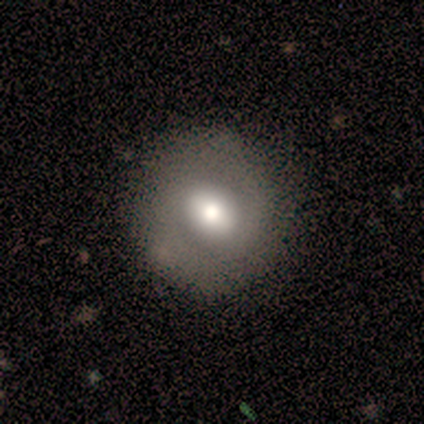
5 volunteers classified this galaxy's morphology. Q: Smooth or featured?
A: featured or disk (60%); runner-up: smooth (40%)
Q: Edge-on disk?
A: no (100%)
Q: Bar?
A: no (67%); runner-up: weak (33%)
Q: Spiral arms?
A: no (67%); runner-up: yes (33%)
Q: Bulge size?
A: moderate (67%); runner-up: large (33%)
Q: Merging?
A: none (80%); runner-up: minor disturbance (20%)